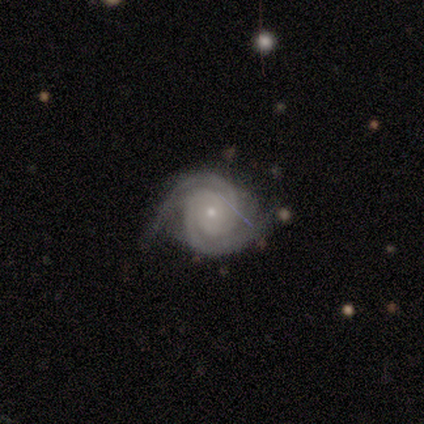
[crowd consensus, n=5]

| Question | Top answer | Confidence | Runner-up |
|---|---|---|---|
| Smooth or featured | featured or disk | 100% | — |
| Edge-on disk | no | 100% | — |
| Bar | no | 100% | — |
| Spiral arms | yes | 100% | — |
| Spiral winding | tight | 80% | medium (20%) |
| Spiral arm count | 2 | 100% | — |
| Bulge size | small | 100% | — |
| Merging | none | 40% | tied: major disturbance (40%) |